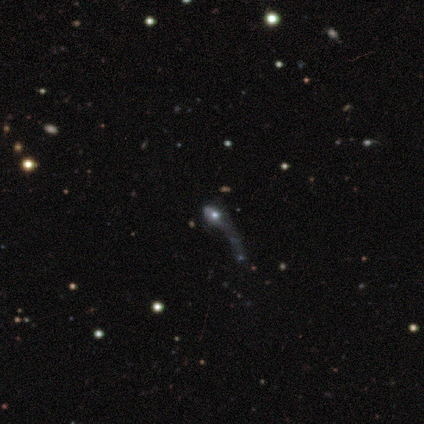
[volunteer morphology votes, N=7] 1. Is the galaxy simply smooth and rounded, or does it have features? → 57% featured or disk, 29% smooth, 14% star or artifact.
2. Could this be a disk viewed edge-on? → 75% no, 25% yes.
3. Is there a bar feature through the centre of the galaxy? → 100% no, 0% strong, 0% weak.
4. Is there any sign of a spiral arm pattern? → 67% yes, 33% no.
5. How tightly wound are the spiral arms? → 50% medium (tied), 50% loose (tied), 0% tight.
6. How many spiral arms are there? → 50% 1 (tied), 50% can't tell (tied), 0% 2, 0% 3, 0% 4, 0% more than 4.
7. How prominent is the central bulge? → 33% moderate (tied), 33% small (tied), 33% none (tied), 0% dominant, 0% large.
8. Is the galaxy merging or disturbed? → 83% merger, 17% major disturbance, 0% none, 0% minor disturbance.